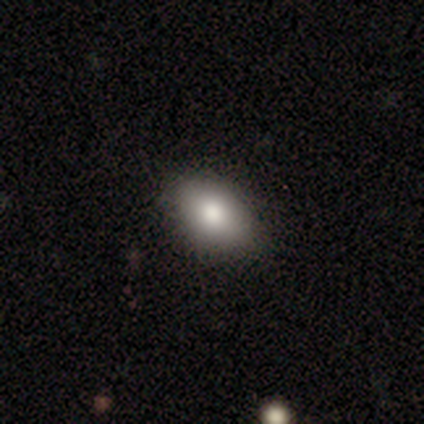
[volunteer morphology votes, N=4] smooth 100%, featured or disk 0%, star or artifact 0%. Down the decision tree: how rounded — in between (100%); merging — none (75%).